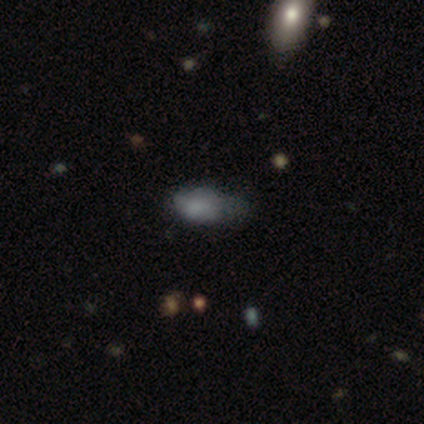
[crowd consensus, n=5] Smooth or featured?
  - smooth: 60% *
  - featured or disk: 40%
  - star or artifact: 0%
How rounded?
  - in between: 100% *
  - round: 0%
  - cigar-shaped: 0%
Merging?
  - none: 40% * (tied)
  - major disturbance: 40% * (tied)
  - minor disturbance: 20%
  - merger: 0%